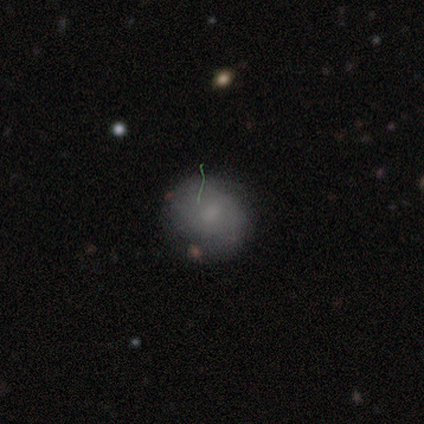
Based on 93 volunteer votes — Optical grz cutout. It shows a smooth galaxy with no disk features (63%) that is round (71%). Merging: none (67%).